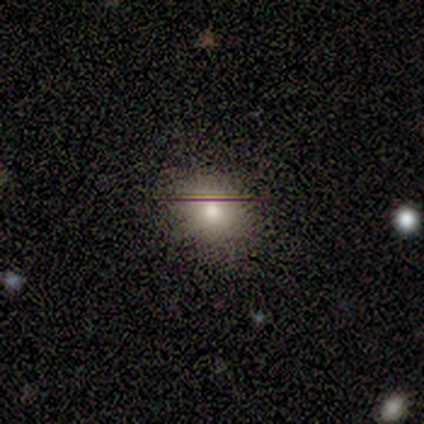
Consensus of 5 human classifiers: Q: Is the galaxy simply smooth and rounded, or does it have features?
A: smooth — 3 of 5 (60%).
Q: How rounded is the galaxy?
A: round — 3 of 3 (100%).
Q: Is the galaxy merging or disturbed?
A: none — 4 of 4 (100%).